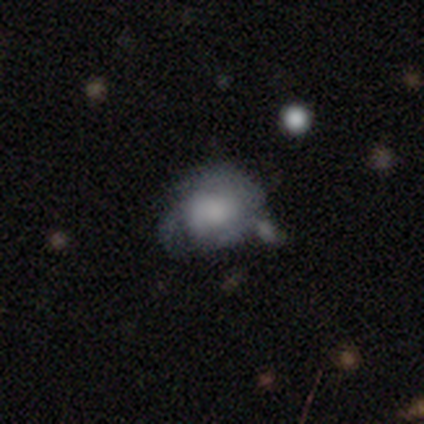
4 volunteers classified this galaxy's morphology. smooth-or-featured: smooth: 50% | featured or disk: 25% | star or artifact: 25%
  how-rounded: round: 50% (tied) | in between: 50% (tied) | cigar-shaped: 0%
  merging: minor disturbance: 67% | major disturbance: 33% | none: 0% | merger: 0%